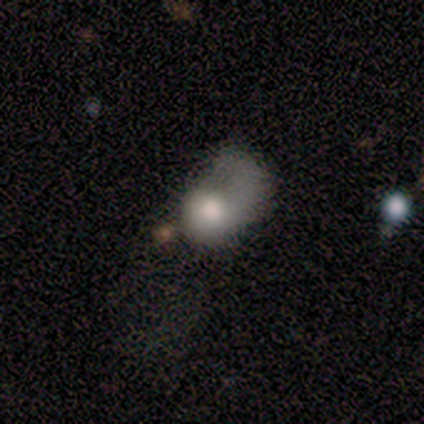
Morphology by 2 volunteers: Smooth or featured: smooth — 50% (tied with featured or disk — 50%)
How rounded: in between — 100%
Merging: minor disturbance — 50% (tied with merger — 50%)